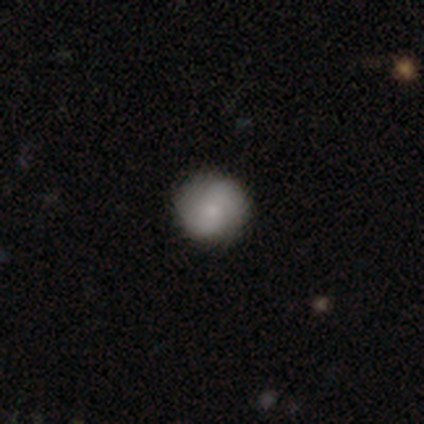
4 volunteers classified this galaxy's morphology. smooth_or_featured: smooth (p=0.75) [alt: featured or disk p=0.25]
how_rounded: round (p=1.00)
merging: none (p=0.75) [alt: minor disturbance p=0.25]